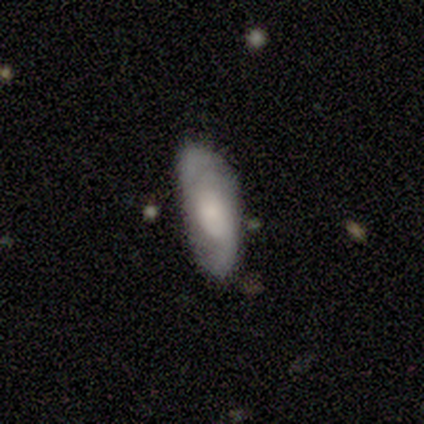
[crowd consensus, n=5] This is likely a featured or disk galaxy (60%). It is likely not viewed edge-on (67%). Bar: clearly no (100%). Spiral arm pattern: clearly yes (100%). Spiral arm count: clearly 2 (100%). Spiral winding: clearly loose (100%). Central bulge: clearly none (100%). Merging: likely minor disturbance (60%).